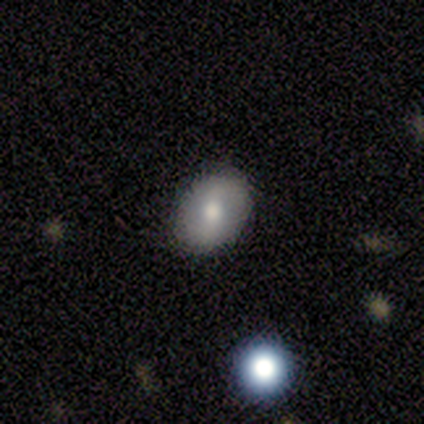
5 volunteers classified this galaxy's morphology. Q: Smooth or featured?
A: smooth (40%); tied with: featured or disk (40%)
Q: How rounded?
A: round (100%)
Q: Merging?
A: none (100%)